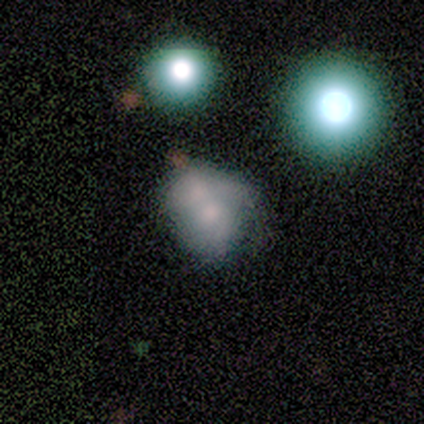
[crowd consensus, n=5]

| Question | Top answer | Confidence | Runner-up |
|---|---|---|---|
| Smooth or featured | featured or disk | 60% | smooth (40%) |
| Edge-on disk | no | 100% | — |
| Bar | no | 100% | — |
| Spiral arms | no | 67% | yes (33%) |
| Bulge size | moderate | 67% | small (33%) |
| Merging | none | 40% | tied: minor disturbance (40%) |